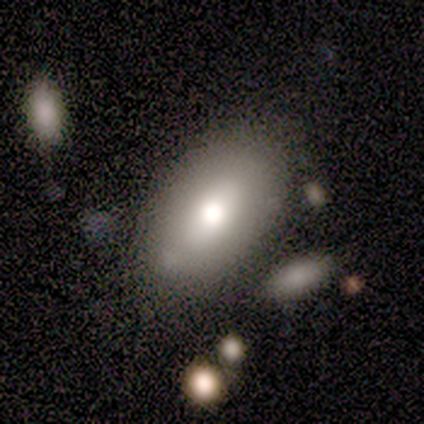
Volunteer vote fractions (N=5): Smooth or featured? smooth (60%)
How rounded? in between (100%)
Merging? none (50%, tied with merger)